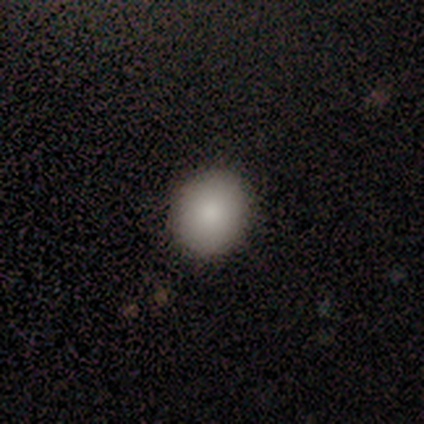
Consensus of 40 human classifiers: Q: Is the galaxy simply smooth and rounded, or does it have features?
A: smooth — 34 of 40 (85%).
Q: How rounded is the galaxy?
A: round — 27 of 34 (79%).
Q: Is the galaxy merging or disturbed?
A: none — 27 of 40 (68%).